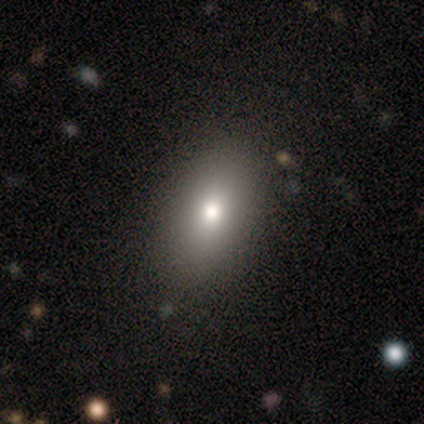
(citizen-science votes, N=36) Volunteers were most divided on "smooth or featured": smooth: 67%, featured or disk: 17%, star or artifact: 17%. More confident: how rounded — in between (92%); merging — none (87%).